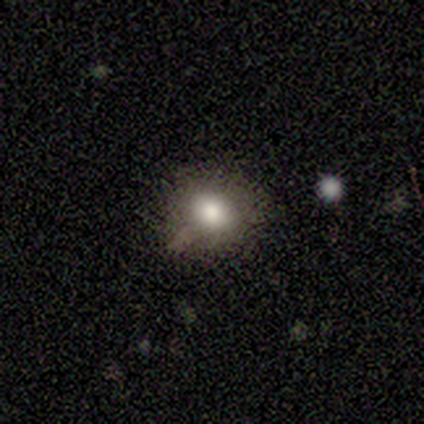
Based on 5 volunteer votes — Morphology: type=smooth (40%, tied with featured or disk); roundness=round (100%); merging=none (50%).